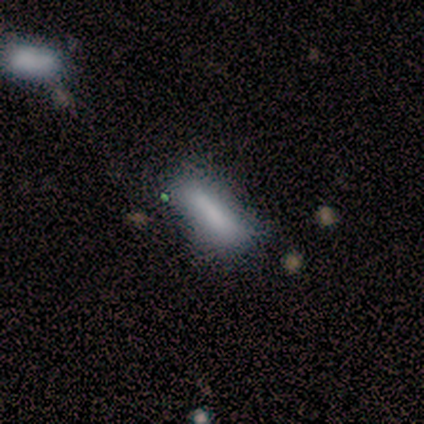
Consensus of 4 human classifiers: A smooth galaxy with no disk features (100%) that is in between round and cigar-shaped (50%, tied with cigar-shaped). Merging: minor disturbance (75%).